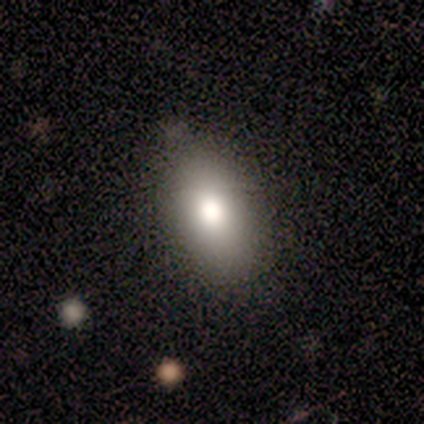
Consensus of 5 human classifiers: Smooth or featured? 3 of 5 (60%) said smooth. How rounded? 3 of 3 (100%) said in between. Merging? 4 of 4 (100%) said none.